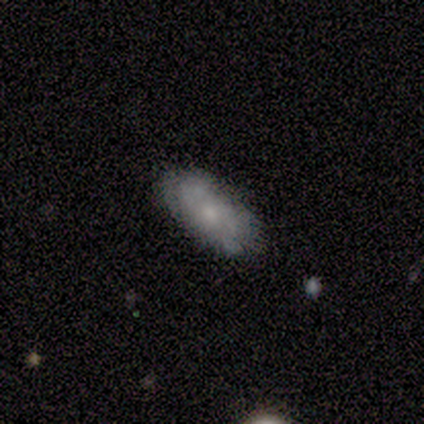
Q: Smooth or featured?
A: smooth (75%); runner-up: featured or disk (25%)
Q: How rounded?
A: in between (100%)
Q: Merging?
A: none (75%); runner-up: minor disturbance (25%)